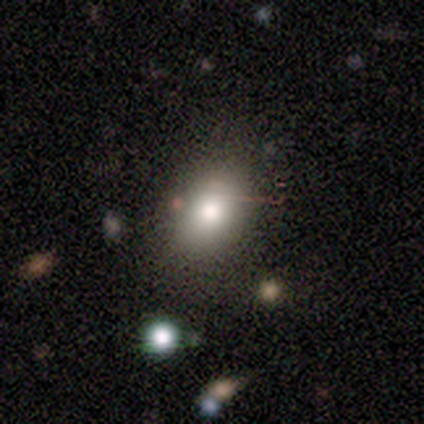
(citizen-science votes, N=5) Overall: smooth (100%). How rounded: in between (100%). Merging: none (80%).